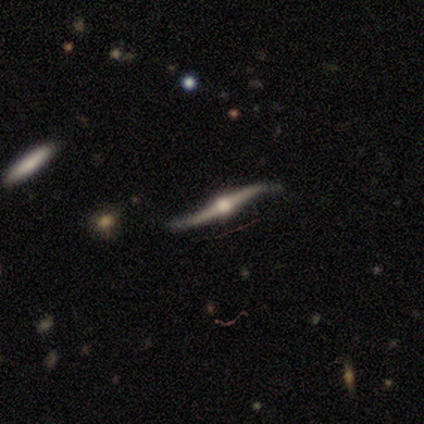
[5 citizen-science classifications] Smooth or featured? featured or disk (100%)
Edge-on disk? yes (80%)
Edge-on bulge? rounded (100%)
Merging? none (80%)